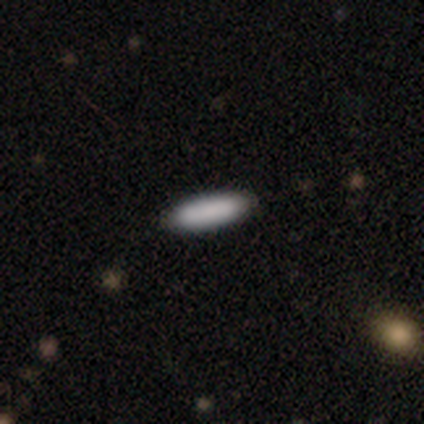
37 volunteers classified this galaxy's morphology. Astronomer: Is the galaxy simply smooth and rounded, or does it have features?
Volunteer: smooth — 86%.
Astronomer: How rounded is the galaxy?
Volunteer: cigar-shaped — 72%.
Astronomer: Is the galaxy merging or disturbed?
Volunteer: none — 91%.